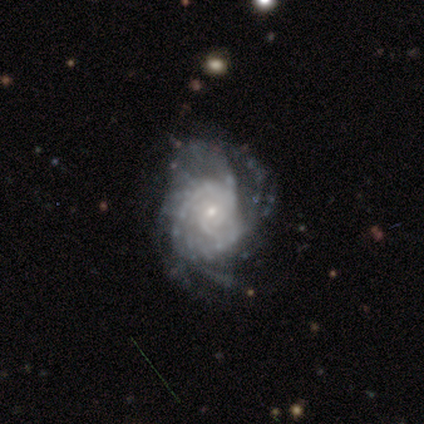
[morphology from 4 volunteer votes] smooth-or-featured: featured or disk: 75% | smooth: 25% | star or artifact: 0%
  disk-edge-on: no: 100% | yes: 0%
    bar: no: 100% | strong: 0% | weak: 0%
    has-spiral-arms: yes: 100% | no: 0%
      spiral-winding: tight: 67% | medium: 33% | loose: 0%
      spiral-arm-count: 4: 33% (tied) | more than 4: 33% (tied) | can't tell: 33% (tied) | 1: 0% | 2: 0% | 3: 0%
    bulge-size: small: 100% | dominant: 0% | large: 0% | moderate: 0% | none: 0%
  merging: none: 75% | major disturbance: 25% | minor disturbance: 0% | merger: 0%